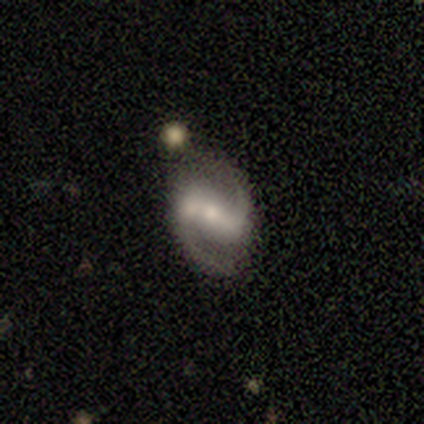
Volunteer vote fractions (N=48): Morphology: type=featured or disk (85%); edge-on=no (100%); bar=strong (46%); spiral arms=yes (95%); winding=medium (54%); arm count=2 (100%); bulge=moderate (54%); merging=none (81%).